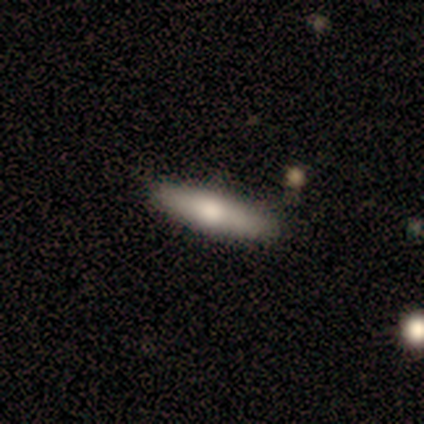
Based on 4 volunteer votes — Smooth or featured?
  - featured or disk: 75% *
  - smooth: 25%
  - star or artifact: 0%
Edge-on disk?
  - yes: 100% *
  - no: 0%
Edge-on bulge?
  - rounded: 67% *
  - none: 33%
  - boxy: 0%
Merging?
  - none: 100% *
  - minor disturbance: 0%
  - major disturbance: 0%
  - merger: 0%